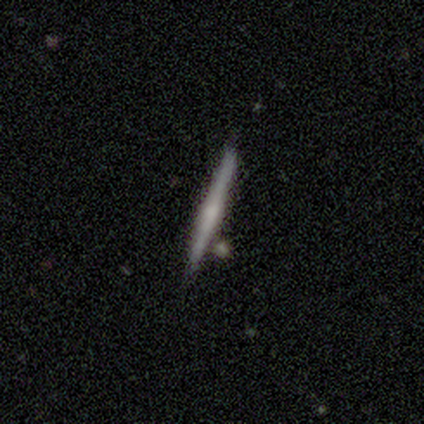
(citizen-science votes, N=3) Volunteers were most divided on "smooth or featured": smooth: 67%, featured or disk: 33%, star or artifact: 0%. More confident: how rounded — cigar-shaped (100%); merging — none (100%).